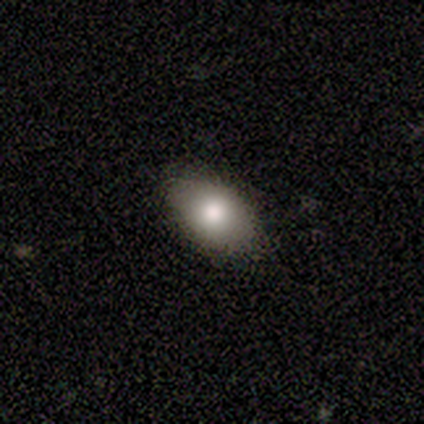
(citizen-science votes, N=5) Overall: smooth (100%). How rounded: in between (60%; round 40%). Merging: none (80%).